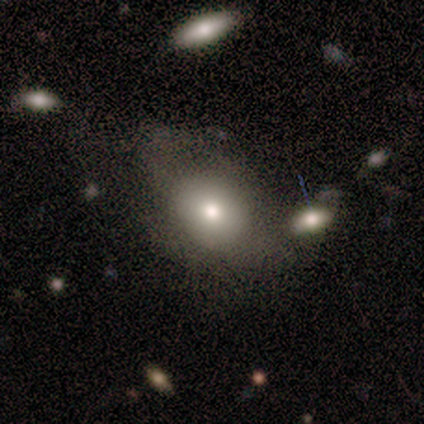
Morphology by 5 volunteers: Q: Smooth or featured?
A: smooth (100%)
Q: How rounded?
A: round (60%); runner-up: in between (40%)
Q: Merging?
A: none (60%); runner-up: minor disturbance (20%)